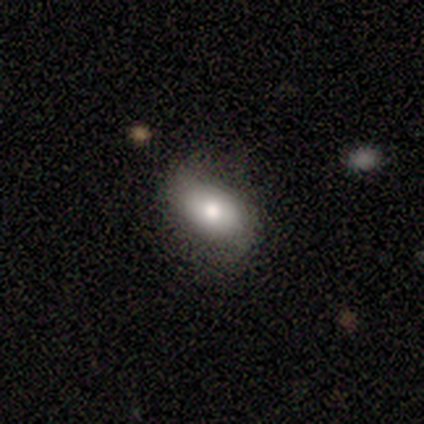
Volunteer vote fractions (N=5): smooth 60%, featured or disk 40%, star or artifact 0%. Down the decision tree: how rounded — in between (100%); merging — none (80%).